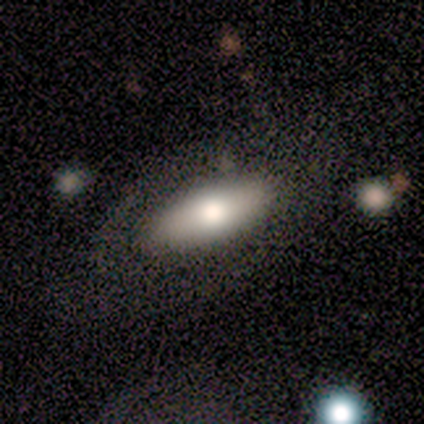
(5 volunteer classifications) smooth 60%, featured or disk 40%, star or artifact 0%. Down the decision tree: how rounded — in between (67%); merging — none (40%, tied with minor disturbance).